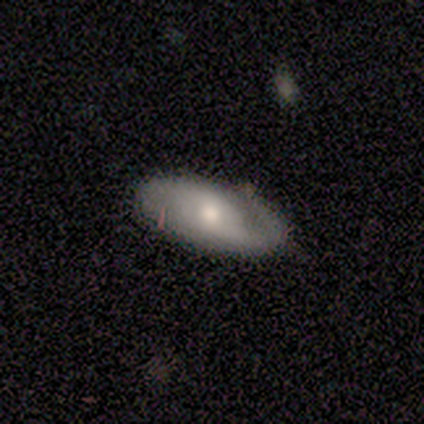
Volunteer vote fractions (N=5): Smooth or featured: featured or disk — 60% (smooth — 40%)
Edge-on disk: no — 67% (yes — 33%)
Bar: weak — 50% (tied with no — 50%)
Spiral arms: yes — 100%
Spiral winding: medium — 50% (tied with loose — 50%)
Spiral arm count: 1 — 50% (tied with 2 — 50%)
Bulge size: moderate — 50% (tied with small — 50%)
Merging: none — 100%